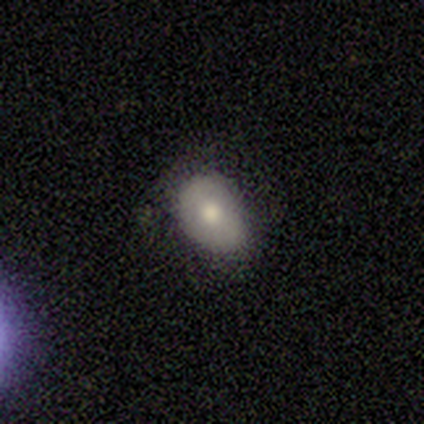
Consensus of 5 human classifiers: Smooth or featured: smooth — 60% (featured or disk — 40%)
How rounded: in between — 100%
Merging: none — 60% (minor disturbance — 40%)